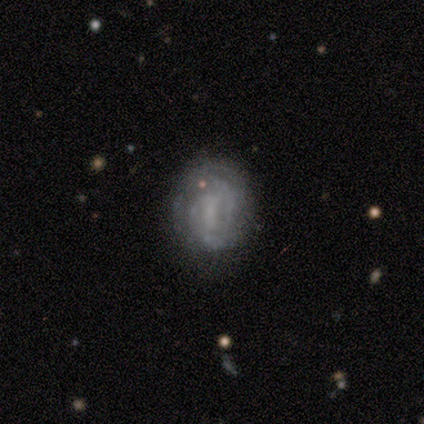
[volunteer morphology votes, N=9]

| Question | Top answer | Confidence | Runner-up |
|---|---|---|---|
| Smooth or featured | featured or disk | 56% | smooth (44%) |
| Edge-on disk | no | 100% | — |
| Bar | no | 60% | weak (40%) |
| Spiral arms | yes | 80% | no (20%) |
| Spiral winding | medium | 75% | tight (25%) |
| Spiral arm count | can't tell | 50% | 2 (25%) |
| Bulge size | small | 40% | tied: none (40%) |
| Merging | none | 78% | minor disturbance (11%) |